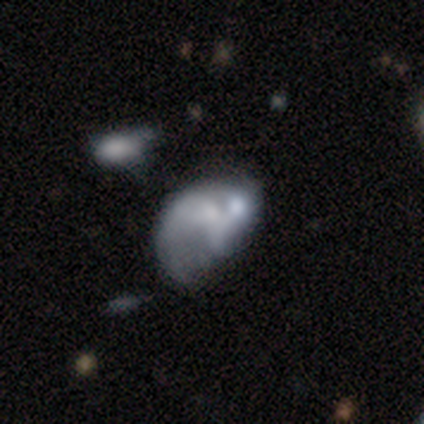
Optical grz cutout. It shows a featured or disk galaxy (56%) with no bar (60%), no spiral arms (80%) and no central bulge (60%). Merging: minor disturbance (33%, tied with major disturbance and merger).